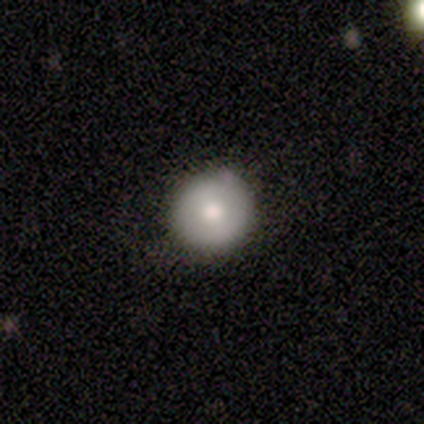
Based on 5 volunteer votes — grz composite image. It shows a featured or disk galaxy (60%) with no bar (67%), no spiral arms (100%) and a moderate central bulge (100%). Merging: none (100%).